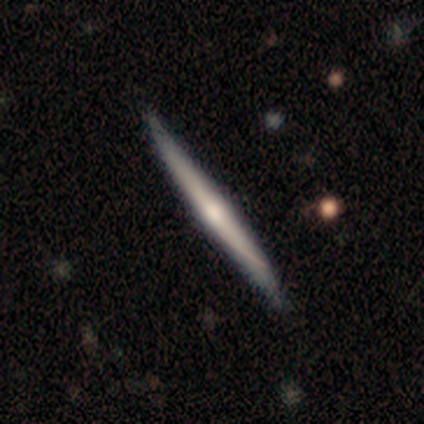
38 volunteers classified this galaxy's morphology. This appears to be a featured or disk galaxy (55%) viewed edge-on (100%) with a rounded central bulge (71%). Merging: none (68%).